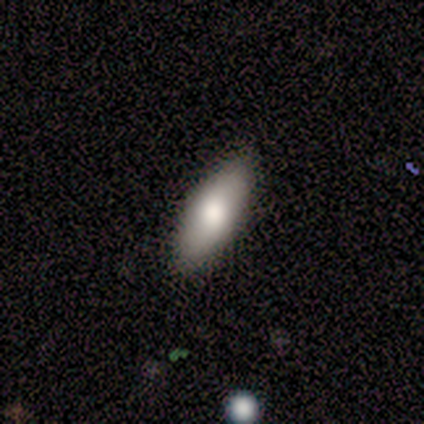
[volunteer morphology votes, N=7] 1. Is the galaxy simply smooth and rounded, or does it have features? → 86% smooth, 14% featured or disk, 0% star or artifact.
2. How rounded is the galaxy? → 83% in between, 17% cigar-shaped, 0% round.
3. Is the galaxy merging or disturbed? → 71% none, 14% minor disturbance, 14% major disturbance, 0% merger.